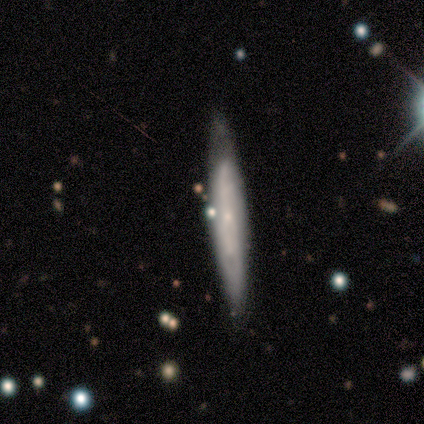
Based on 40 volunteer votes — smooth-or-featured: featured or disk: 62% | smooth: 32% | star or artifact: 5%
  disk-edge-on: yes: 52% | no: 48%
    edge-on-bulge: none: 54% | rounded: 38% | boxy: 8%
  merging: none: 74% | minor disturbance: 21% | major disturbance: 3% | merger: 3%